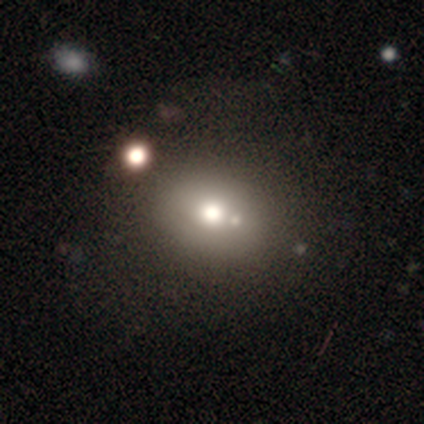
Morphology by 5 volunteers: Volunteers were most divided on "merging": none: 60%, merger: 40%, minor disturbance: 0%, major disturbance: 0%. More confident: smooth or featured — smooth (80%); how rounded — round (75%).